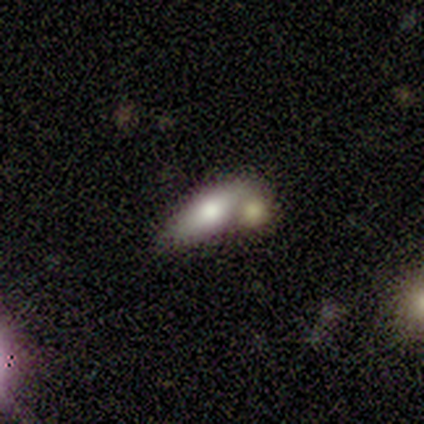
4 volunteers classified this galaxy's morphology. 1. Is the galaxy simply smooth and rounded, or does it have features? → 50% smooth, 25% featured or disk, 25% star or artifact.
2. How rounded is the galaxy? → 100% in between, 0% round, 0% cigar-shaped.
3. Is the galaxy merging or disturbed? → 67% none, 33% major disturbance, 0% minor disturbance, 0% merger.